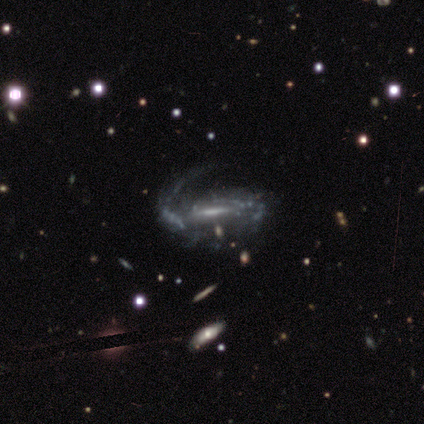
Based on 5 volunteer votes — Smooth or featured? featured or disk (100%)
Edge-on disk? no (80%)
Bar? weak (50%)
Spiral arms? yes (75%)
Spiral winding? medium (100%)
Spiral arm count? 1 (67%)
Bulge size? large (50%, tied with small)
Merging? none (40%, tied with major disturbance)